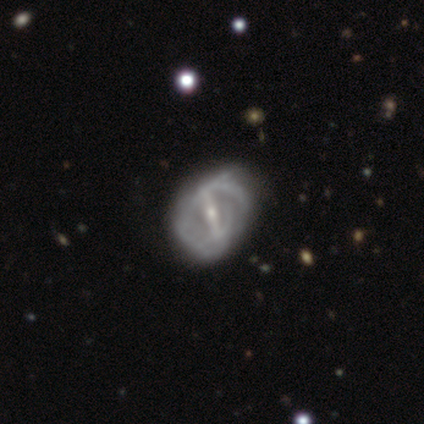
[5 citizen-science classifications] This is clearly a featured or disk galaxy (80%). It is likely not viewed edge-on (75%). Bar: likely strong (67%). Spiral arm pattern: likely no (67%). Central bulge: likely moderate (67%). Merging: likely none (75%).